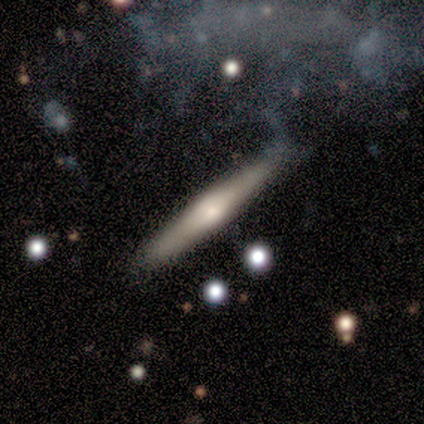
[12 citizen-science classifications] Overall: featured or disk (83%). Edge-on disk: yes (100%). Edge-on bulge: rounded (90%). Merging: none (58%; major disturbance 25%).